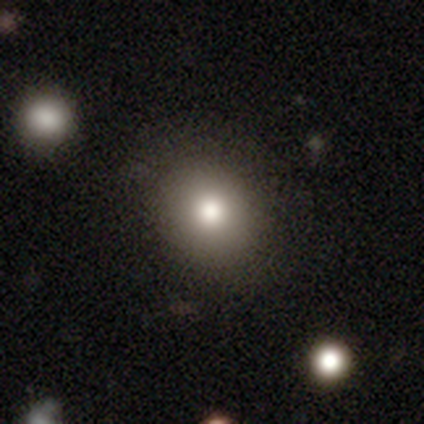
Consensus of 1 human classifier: A featured or disk galaxy (100%) with no bar (100%), no spiral arms (100%) and a large central bulge (100%).

Vote fractions:
- Smooth or featured? featured or disk: 100% / smooth: 0% / star or artifact: 0%
- Edge-on disk? no: 100% / yes: 0%
- Bar? no: 100% / strong: 0% / weak: 0%
- Spiral arms? no: 100% / yes: 0%
- Bulge size? large: 100% / dominant: 0% / moderate: 0% / small: 0% / none: 0%
- Merging? minor disturbance: 100% / none: 0% / major disturbance: 0% / merger: 0%